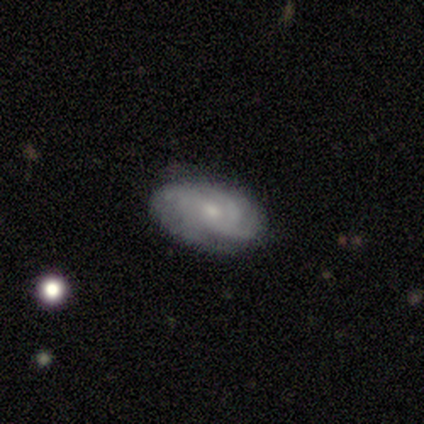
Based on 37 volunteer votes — Overall: featured or disk (81%). Edge-on disk: no (97%). Bar: no (72%). Spiral arms: yes (97%). Spiral arm count: can't tell (39%; 3 32%). Spiral winding: medium (50%; tight 43%). Bulge size: small (48%; moderate 38%). Merging: none (79%).